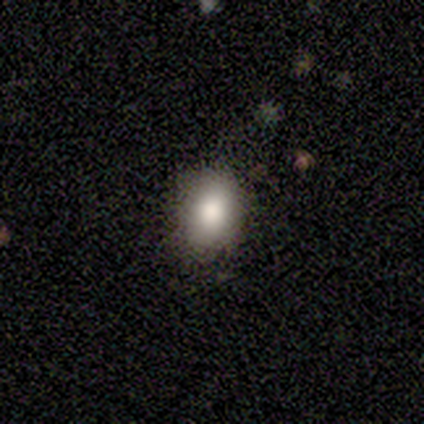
Q: Smooth or featured?
A: smooth (50%); runner-up: featured or disk (25%)
Q: How rounded?
A: in between (100%)
Q: Merging?
A: none (67%); runner-up: minor disturbance (33%)